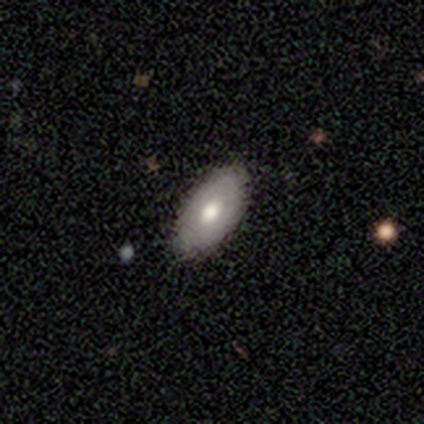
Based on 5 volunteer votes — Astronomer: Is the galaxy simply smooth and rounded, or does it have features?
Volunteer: smooth — 80%.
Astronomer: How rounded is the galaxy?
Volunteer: in between — 75%.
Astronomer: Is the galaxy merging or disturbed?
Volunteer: none — 100%.